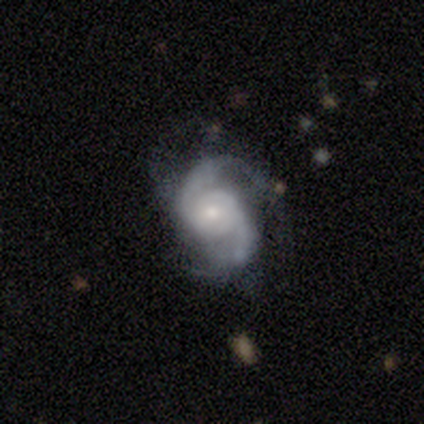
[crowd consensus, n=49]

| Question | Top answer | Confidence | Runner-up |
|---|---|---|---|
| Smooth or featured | featured or disk | 92% | smooth (8%) |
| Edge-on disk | no | 93% | yes (7%) |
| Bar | no | 71% | weak (21%) |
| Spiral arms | yes | 98% | no (2%) |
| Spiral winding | medium | 49% | tight (27%) |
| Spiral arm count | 2 | 93% | 1 (2%) |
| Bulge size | small | 60% | moderate (36%) |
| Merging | none | 67% | minor disturbance (24%) |